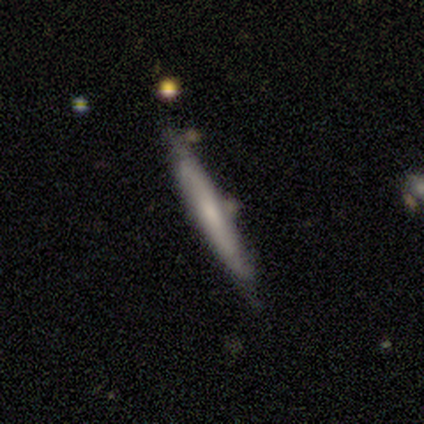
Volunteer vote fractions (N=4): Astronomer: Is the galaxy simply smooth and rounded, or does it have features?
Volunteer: featured or disk — 75%.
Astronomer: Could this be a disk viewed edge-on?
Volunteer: yes — 100%.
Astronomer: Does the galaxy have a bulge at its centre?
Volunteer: none — 67%.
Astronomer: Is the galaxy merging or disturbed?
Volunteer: none — 75%.